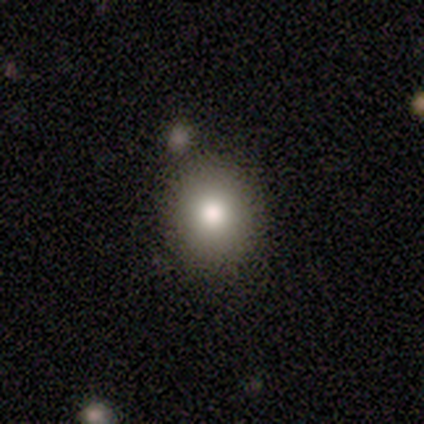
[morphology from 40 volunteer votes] Smooth or featured?
  - smooth: 92% *
  - star or artifact: 5%
  - featured or disk: 2%
How rounded?
  - round: 78% *
  - in between: 22%
  - cigar-shaped: 0%
Merging?
  - none: 84% *
  - merger: 11%
  - major disturbance: 5%
  - minor disturbance: 0%